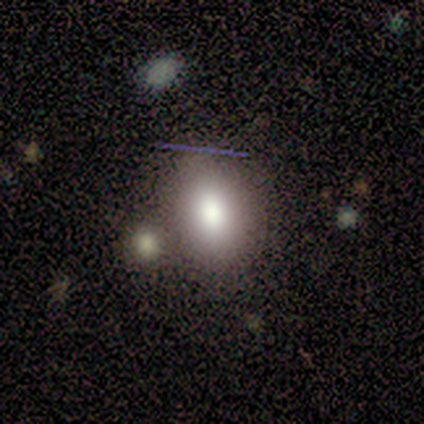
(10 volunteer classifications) Q: Smooth or featured?
A: smooth (90%); runner-up: featured or disk (10%)
Q: How rounded?
A: in between (67%); runner-up: round (33%)
Q: Merging?
A: none (70%); runner-up: merger (20%)